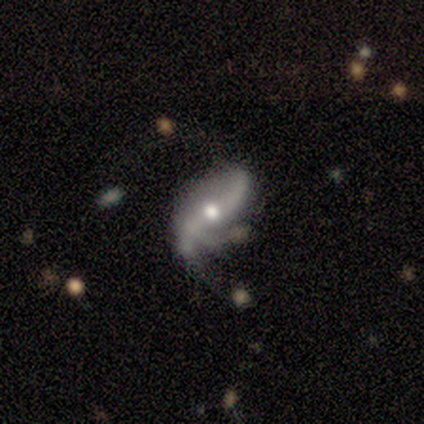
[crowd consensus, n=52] Morphology: type=featured or disk (85%); edge-on=no (98%); bar=no (63%); spiral arms=yes (88%); winding=loose (82%); arm count=2 (79%); bulge=moderate (70%); merging=none (36%).